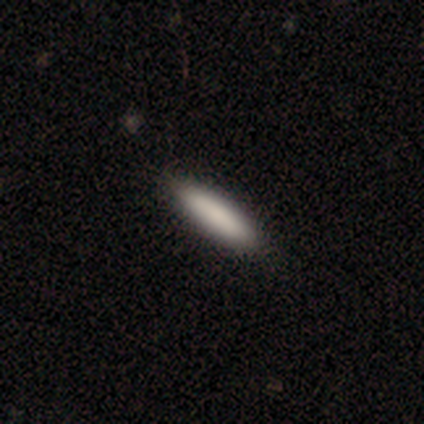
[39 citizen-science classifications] Smooth or featured? 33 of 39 (85%) said smooth. How rounded? 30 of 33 (91%) said cigar-shaped. Merging? 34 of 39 (87%) said none.